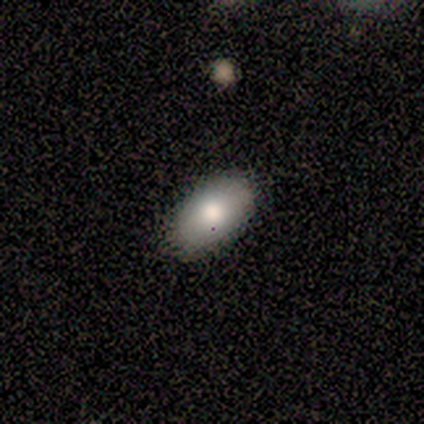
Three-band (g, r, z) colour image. It shows a smooth galaxy with no disk features (83%) that is in between round and cigar-shaped (90%). Merging: none (100%).